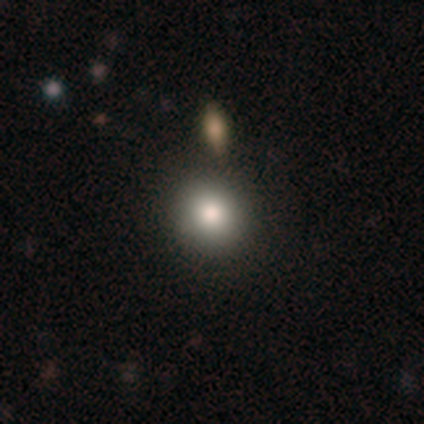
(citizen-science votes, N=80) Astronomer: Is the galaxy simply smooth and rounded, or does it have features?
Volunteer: smooth — 88%.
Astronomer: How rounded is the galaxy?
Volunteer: round — 91%.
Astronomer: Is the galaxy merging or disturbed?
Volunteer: none — 45%.